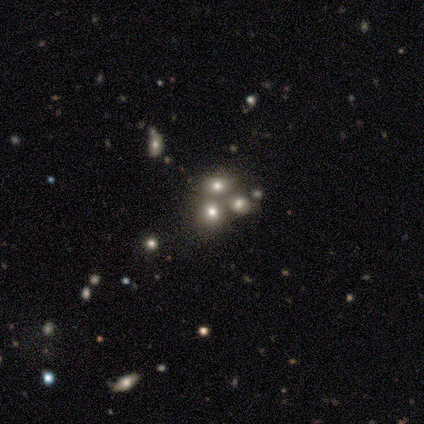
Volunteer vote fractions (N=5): A smooth galaxy with no disk features (60%) that is in between round and cigar-shaped (100%). Merging: merger (60%).